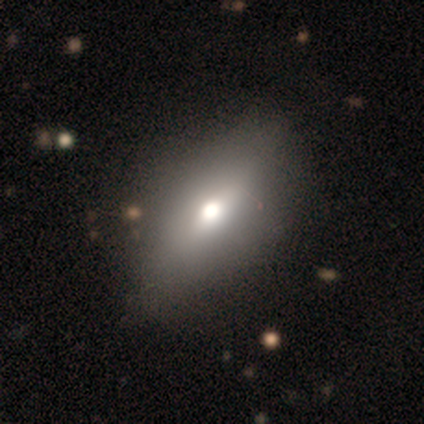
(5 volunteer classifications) Morphology: type=featured or disk (60%); edge-on=yes (67%); edge-on bulge=rounded (100%); merging=none (60%).